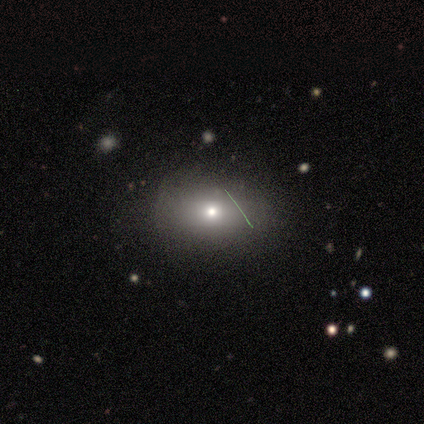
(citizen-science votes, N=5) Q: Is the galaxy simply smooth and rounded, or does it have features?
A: star or artifact — 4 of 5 (80%).